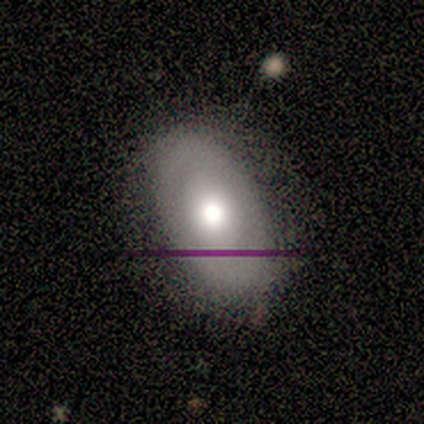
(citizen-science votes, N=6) smooth-or-featured: smooth: 67% | featured or disk: 33% | star or artifact: 0%
  how-rounded: in between: 100% | round: 0% | cigar-shaped: 0%
  merging: none: 83% | minor disturbance: 17% | major disturbance: 0% | merger: 0%